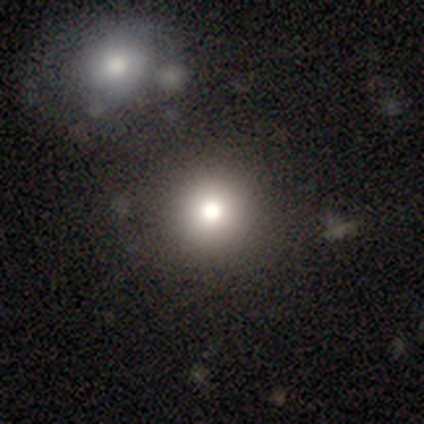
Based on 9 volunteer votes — Smooth or featured? 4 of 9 (44%, tied with star or artifact) said smooth. How rounded? 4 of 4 (100%) said round. Merging? 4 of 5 (80%) said none.